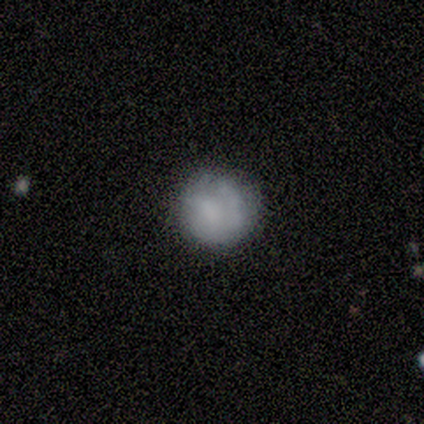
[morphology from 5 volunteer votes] This appears to be a smooth galaxy with no disk features (80%) that is round (75%). Merging: none (100%).